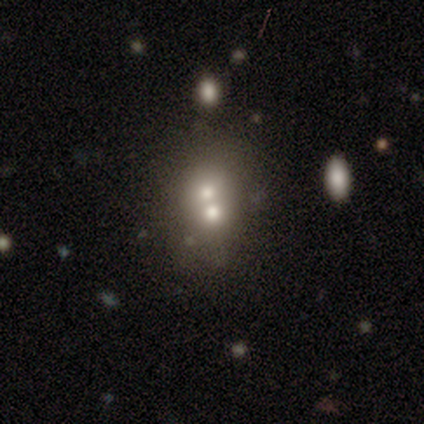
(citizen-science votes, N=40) Volunteers were most divided on "how rounded" (2-way tie): round: 50%, in between: 50%, cigar-shaped: 0%. More confident: merging — merger (75%); smooth or featured — smooth (60%).